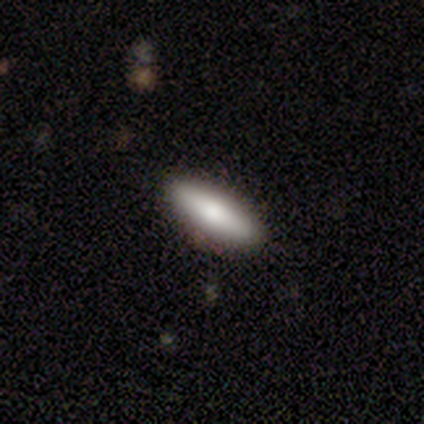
A smooth galaxy with no disk features (60%) that is cigar-shaped (100%).

Vote fractions:
- Smooth or featured? smooth: 60% / featured or disk: 40% / star or artifact: 0%
- How rounded? cigar-shaped: 100% / round: 0% / in between: 0%
- Merging? none: 100% / minor disturbance: 0% / major disturbance: 0% / merger: 0%